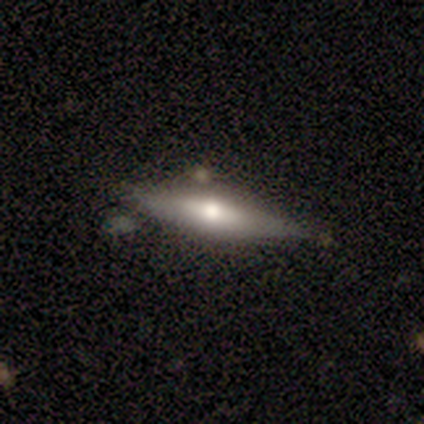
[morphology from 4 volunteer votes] Q: Smooth or featured?
A: smooth (50%); tied with: featured or disk (50%)
Q: How rounded?
A: in between (50%); tied with: cigar-shaped (50%)
Q: Merging?
A: none (100%)